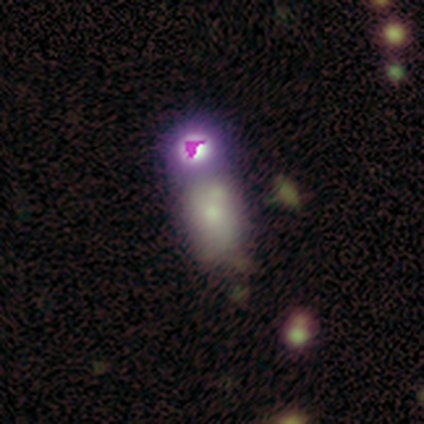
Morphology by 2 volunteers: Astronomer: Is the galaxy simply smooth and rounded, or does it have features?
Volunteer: featured or disk — 50%, tied with star or artifact at 50%.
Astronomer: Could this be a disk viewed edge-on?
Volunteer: no — 100%.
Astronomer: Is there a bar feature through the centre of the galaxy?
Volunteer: no — 100%.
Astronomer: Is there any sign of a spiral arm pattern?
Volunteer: no — 100%.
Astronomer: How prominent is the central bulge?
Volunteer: moderate — 100%.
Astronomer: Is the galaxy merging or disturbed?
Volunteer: merger — 100%.